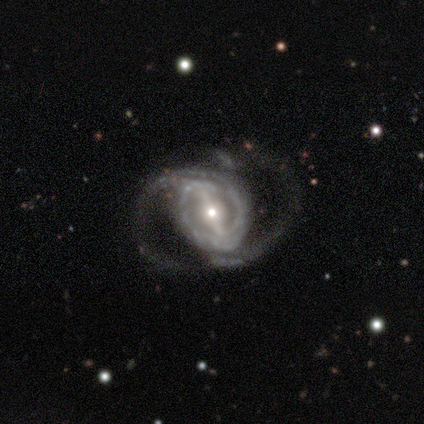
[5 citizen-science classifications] smooth-or-featured: featured or disk: 100% | smooth: 0% | star or artifact: 0%
  disk-edge-on: no: 100% | yes: 0%
    bar: strong: 80% | weak: 20% | no: 0%
    has-spiral-arms: yes: 60% | no: 40%
      spiral-winding: medium: 67% | loose: 33% | tight: 0%
      spiral-arm-count: 2: 33% (tied) | 3: 33% (tied) | can't tell: 33% (tied) | 1: 0% | 4: 0% | more than 4: 0%
    bulge-size: moderate: 80% | small: 20% | dominant: 0% | large: 0% | none: 0%
  merging: major disturbance: 60% | none: 40% | minor disturbance: 0% | merger: 0%